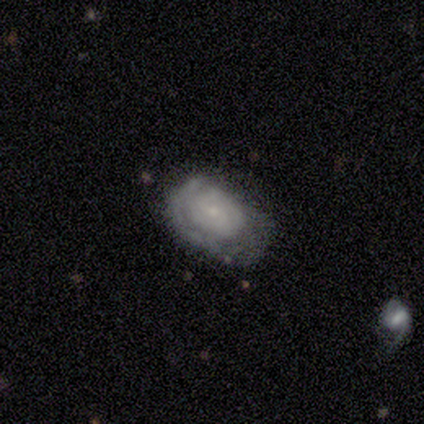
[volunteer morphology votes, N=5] A featured or disk galaxy (80%) with no bar (75%), 2 (67%) tight (67%) spiral arms (75%) and a small central bulge (100%).

Vote fractions:
- Smooth or featured? featured or disk: 80% / smooth: 20% / star or artifact: 0%
- Edge-on disk? no: 100% / yes: 0%
- Bar? no: 75% / weak: 25% / strong: 0%
- Spiral arms? yes: 75% / no: 25%
- Spiral winding? tight: 67% / medium: 33% / loose: 0%
- Spiral arm count? 2: 67% / can't tell: 33% / 1: 0% / 3: 0% / 4: 0% / more than 4: 0%
- Bulge size? small: 100% / dominant: 0% / large: 0% / moderate: 0% / none: 0%
- Merging? none: 80% / major disturbance: 20% / minor disturbance: 0% / merger: 0%